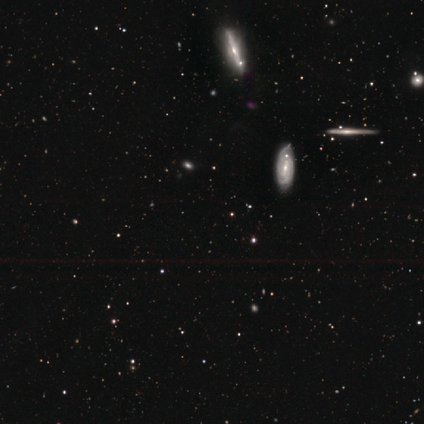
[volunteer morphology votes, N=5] Smooth or featured?
  - star or artifact: 60% *
  - featured or disk: 40%
  - smooth: 0%